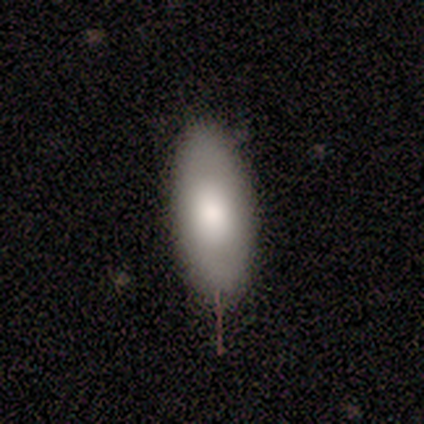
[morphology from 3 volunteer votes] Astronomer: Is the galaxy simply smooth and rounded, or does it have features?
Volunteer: smooth — 67%.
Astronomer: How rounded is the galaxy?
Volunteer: in between — 100%.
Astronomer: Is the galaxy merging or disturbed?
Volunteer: none — 100%.